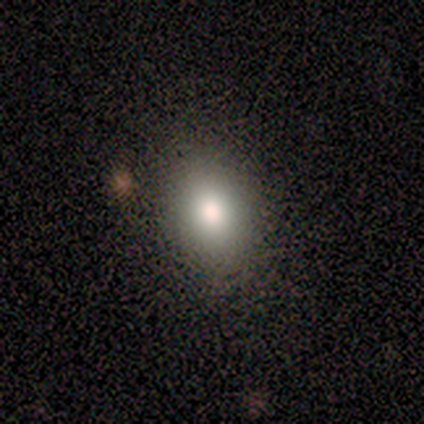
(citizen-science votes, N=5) A smooth galaxy with no disk features (80%) that is round (50%, tied with in between). Merging: none (100%).